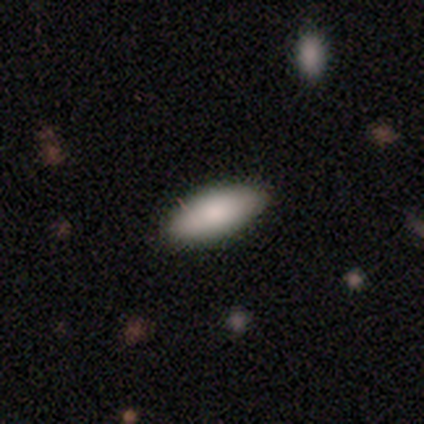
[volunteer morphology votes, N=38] This appears to be a smooth galaxy with no disk features (95%) that is in between round and cigar-shaped (72%). Merging: none (92%).